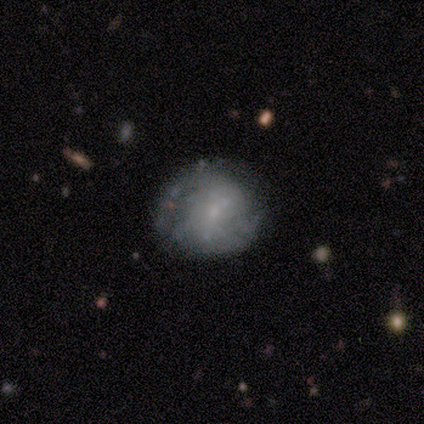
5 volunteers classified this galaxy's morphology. Smooth or featured: featured or disk — 60% (smooth — 40%)
Edge-on disk: no — 100%
Bar: no — 100%
Spiral arms: no — 67% (yes — 33%)
Bulge size: none — 67% (small — 33%)
Merging: none — 100%